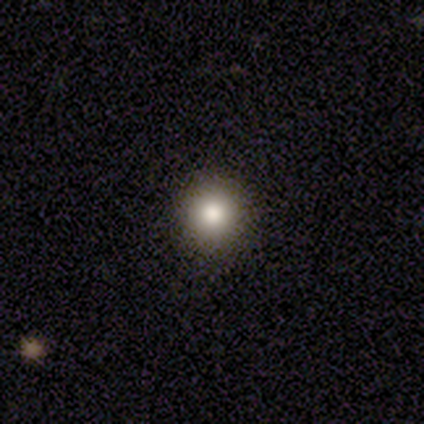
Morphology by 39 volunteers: type=smooth (74%); roundness=round (100%); merging=none (94%).